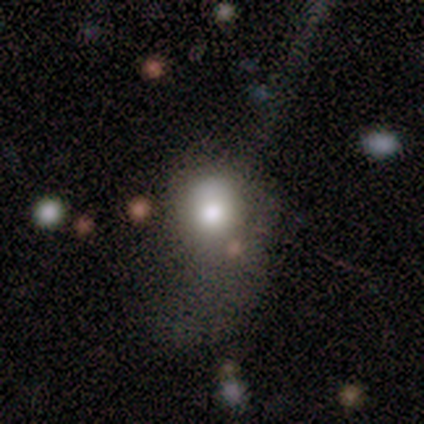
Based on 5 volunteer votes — Smooth or featured: featured or disk — 40% (tied with star or artifact — 40%)
Edge-on disk: no — 100%
Bar: no — 100%
Spiral arms: yes — 50% (tied with no — 50%)
Spiral winding: loose — 100%
Spiral arm count: 1 — 100%
Bulge size: large — 100%
Merging: major disturbance — 67% (merger — 33%)